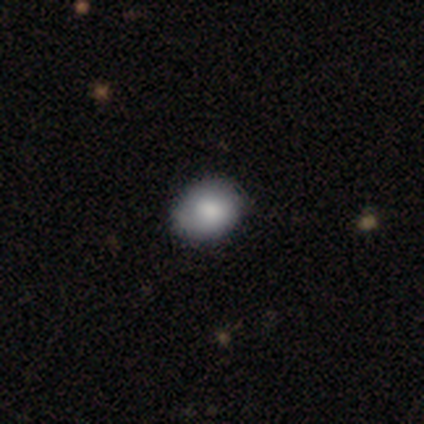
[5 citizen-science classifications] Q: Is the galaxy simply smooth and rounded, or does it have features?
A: smooth — 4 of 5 (80%).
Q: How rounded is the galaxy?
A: in between — 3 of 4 (75%).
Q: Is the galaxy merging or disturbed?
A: none — 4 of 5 (80%).